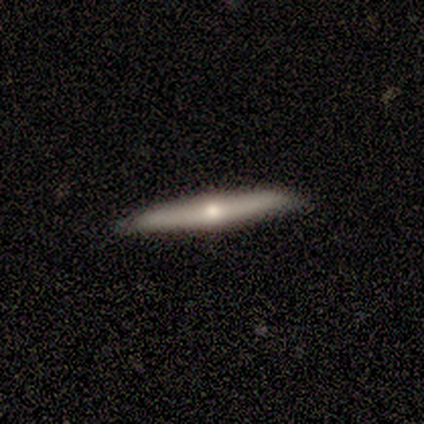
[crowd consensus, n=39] Smooth or featured?
  - featured or disk: 69% *
  - smooth: 26%
  - star or artifact: 5%
Edge-on disk?
  - yes: 96% *
  - no: 4%
Edge-on bulge?
  - rounded: 100% *
  - boxy: 0%
  - none: 0%
Merging?
  - none: 95% *
  - minor disturbance: 5%
  - major disturbance: 0%
  - merger: 0%